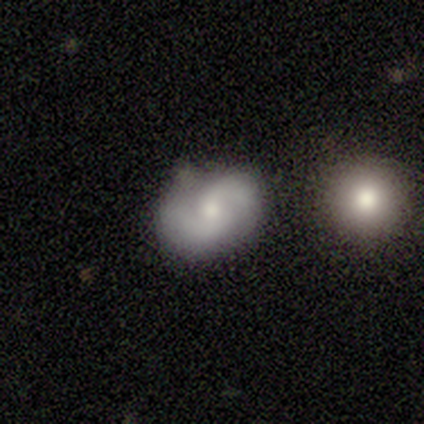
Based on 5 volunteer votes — Smooth or featured: featured or disk — 80% (star or artifact — 20%)
Edge-on disk: no — 100%
Bar: weak — 50% (tied with no — 50%)
Spiral arms: yes — 100%
Spiral winding: medium — 50% (tight — 25%)
Spiral arm count: 2 — 100%
Bulge size: moderate — 50% (tied with small — 50%)
Merging: none — 100%